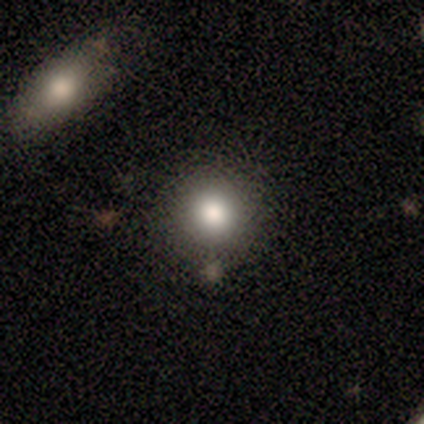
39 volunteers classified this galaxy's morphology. Q: Smooth or featured?
A: smooth (85%); runner-up: featured or disk (8%)
Q: How rounded?
A: round (91%); runner-up: in between (9%)
Q: Merging?
A: none (83%); runner-up: minor disturbance (11%)